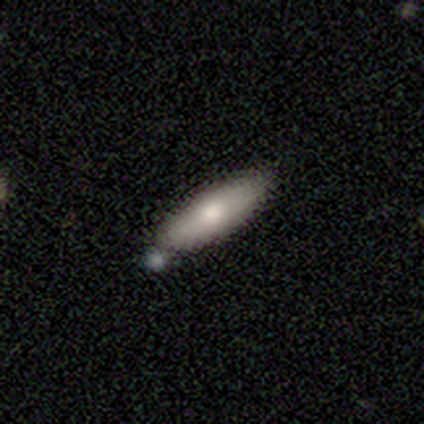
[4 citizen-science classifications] smooth 100%, featured or disk 0%, star or artifact 0%. Down the decision tree: how rounded — in between (50%, tied with cigar-shaped); merging — none (50%, tied with minor disturbance).